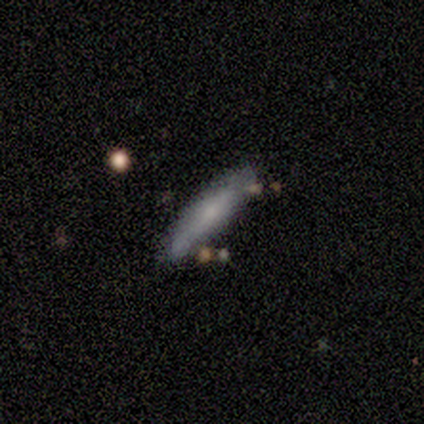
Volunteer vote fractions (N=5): A smooth galaxy with no disk features (80%) that is cigar-shaped (75%). Merging: none (80%).